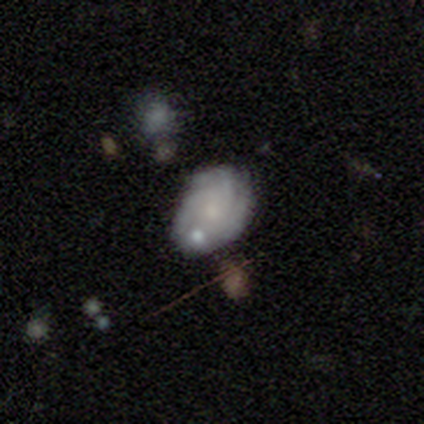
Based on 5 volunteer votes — Overall: featured or disk (60%; smooth 40%). Edge-on disk: no (100%). Bar: no (100%). Spiral arms: yes (100%). Spiral arm count: 3 (33%, tied with more than 4 and can't tell). Spiral winding: medium (67%; tight 33%). Bulge size: moderate (33%, tied with small and none). Merging: none (80%).